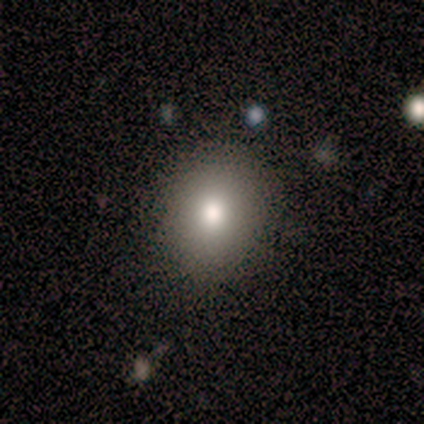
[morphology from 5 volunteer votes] smooth 100%, featured or disk 0%, star or artifact 0%. Down the decision tree: how rounded — round (60%); merging — none (100%).